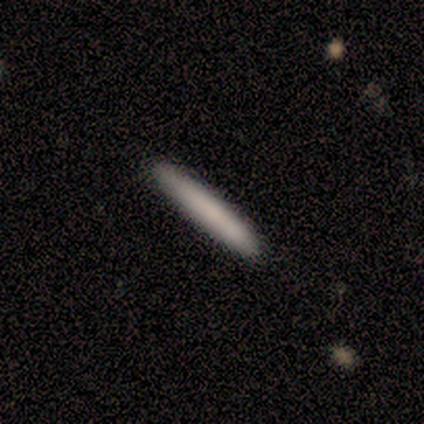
smooth 78%, featured or disk 22%, star or artifact 0%. Down the decision tree: how rounded — cigar-shaped (100%); merging — none (78%).